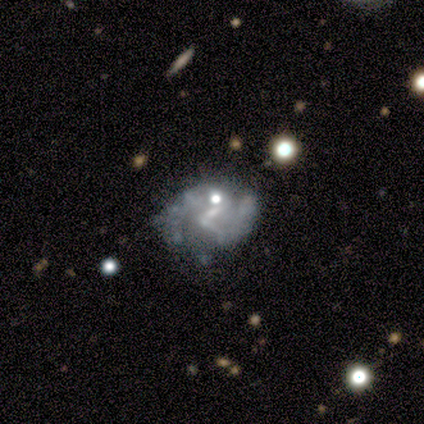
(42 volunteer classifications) Overall: featured or disk (76%). Edge-on disk: no (100%). Bar: no (50%; weak 41%). Spiral arms: yes (56%; no 44%). Spiral arm count: 2 (83%). Spiral winding: medium (56%; loose 39%). Bulge size: small (41%; none 38%). Merging: none (49%; minor disturbance 22%).